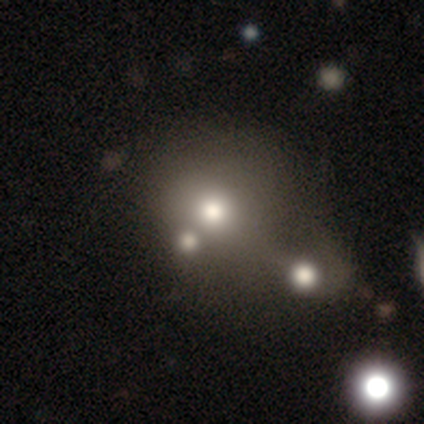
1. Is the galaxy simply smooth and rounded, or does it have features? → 60% star or artifact, 40% featured or disk, 0% smooth.